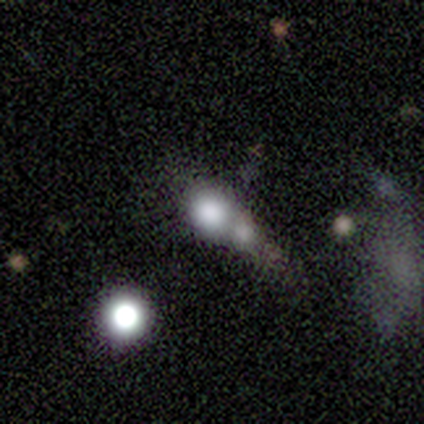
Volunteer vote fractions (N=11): Volunteers were most divided on "smooth or featured": smooth: 45%, star or artifact: 36%, featured or disk: 18%. More confident: merging — merger (71%); how rounded — round (60%).